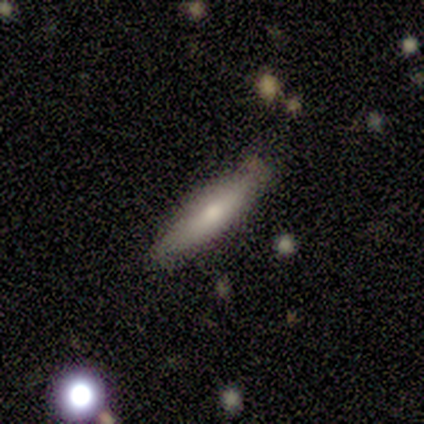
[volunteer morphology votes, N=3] smooth_or_featured: smooth (p=0.67) [alt: featured or disk p=0.33]
how_rounded: cigar-shaped (p=1.00)
merging: none (p=0.67) [alt: minor disturbance p=0.33]